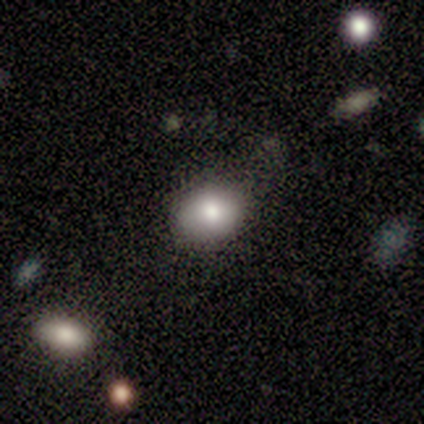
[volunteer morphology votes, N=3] Smooth or featured?
  - smooth: 100% *
  - featured or disk: 0%
  - star or artifact: 0%
How rounded?
  - in between: 67% *
  - round: 33%
  - cigar-shaped: 0%
Merging?
  - none: 67% *
  - minor disturbance: 33%
  - major disturbance: 0%
  - merger: 0%